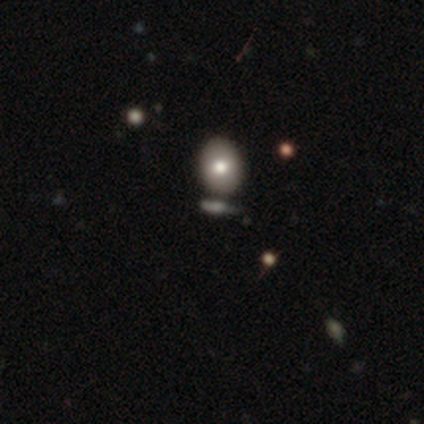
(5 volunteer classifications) Q: Smooth or featured?
A: star or artifact (60%); runner-up: smooth (40%)